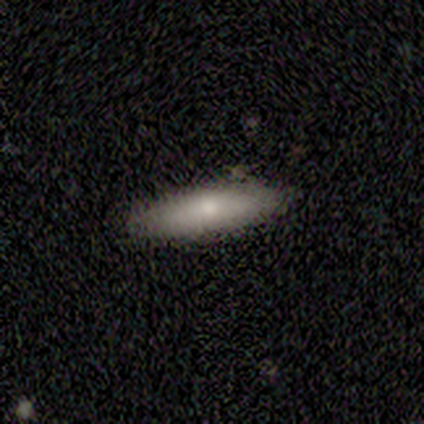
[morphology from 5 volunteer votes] Smooth or featured? 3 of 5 (60%) said featured or disk. Edge-on disk? 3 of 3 (100%) said yes. Edge-on bulge? 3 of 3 (100%) said rounded. Merging? 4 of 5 (80%) said none.